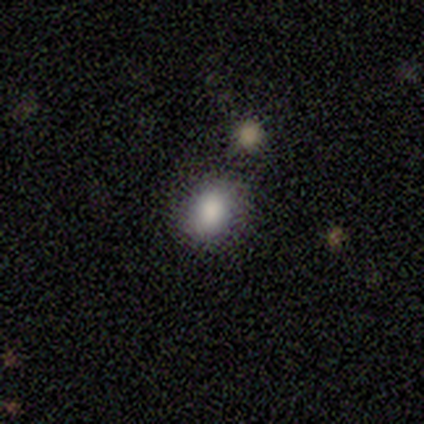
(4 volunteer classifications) Volunteers were most divided on "how rounded": in between: 67%, round: 33%, cigar-shaped: 0%. More confident: merging — none (100%); smooth or featured — smooth (75%).